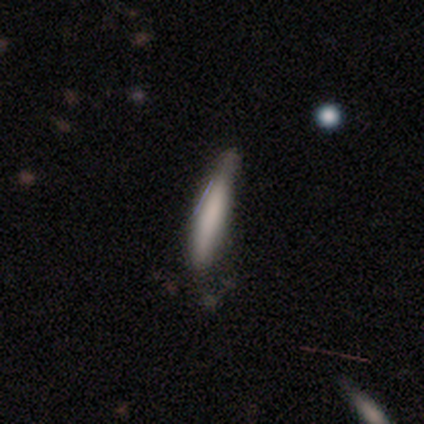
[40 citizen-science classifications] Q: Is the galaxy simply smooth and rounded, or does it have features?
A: smooth — 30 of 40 (75%).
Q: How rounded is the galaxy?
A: cigar-shaped — 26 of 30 (87%).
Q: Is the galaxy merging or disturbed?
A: none — 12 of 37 (32%).